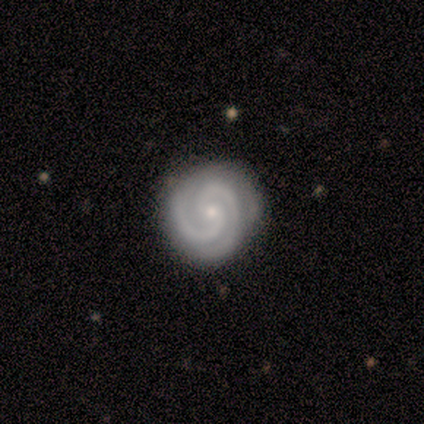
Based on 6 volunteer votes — smooth-or-featured: featured or disk: 100% | smooth: 0% | star or artifact: 0%
  disk-edge-on: no: 100% | yes: 0%
    bar: strong: 33% (tied) | weak: 33% (tied) | no: 33% (tied)
    has-spiral-arms: yes: 100% | no: 0%
      spiral-winding: tight: 67% | medium: 33% | loose: 0%
      spiral-arm-count: 2: 83% | 3: 17% | 1: 0% | 4: 0% | more than 4: 0% | can't tell: 0%
    bulge-size: small: 100% | dominant: 0% | large: 0% | moderate: 0% | none: 0%
  merging: none: 100% | minor disturbance: 0% | major disturbance: 0% | merger: 0%